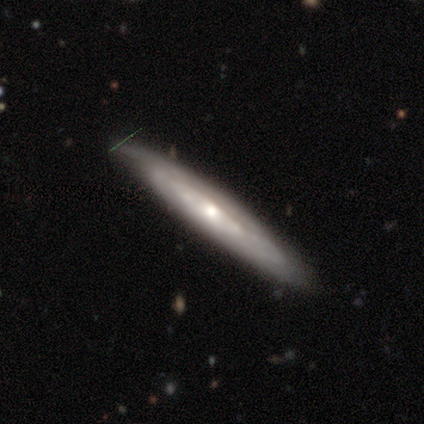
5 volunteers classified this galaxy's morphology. type=featured or disk (100%); edge-on=no (80%); bar=no (75%); spiral arms=yes (50%, tied with no); winding=medium (100%); arm count=can't tell (100%); bulge=moderate (75%); merging=none (80%).